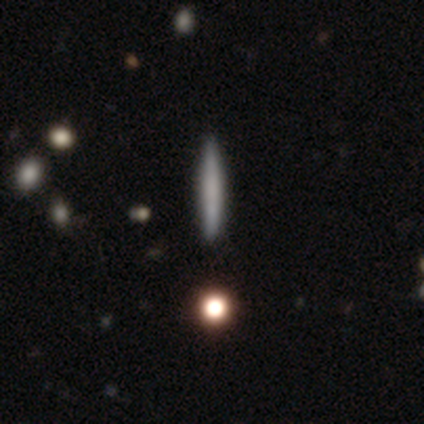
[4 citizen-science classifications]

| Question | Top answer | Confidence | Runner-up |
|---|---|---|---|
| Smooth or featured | star or artifact | 50% | smooth (25%) |